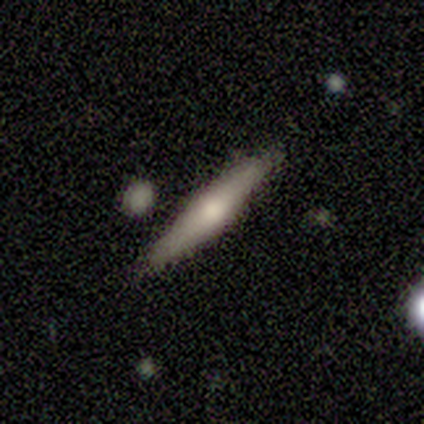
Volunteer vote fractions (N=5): Smooth or featured? 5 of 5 (100%) said featured or disk. Edge-on disk? 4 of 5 (80%) said yes. Edge-on bulge? 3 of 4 (75%) said rounded. Merging? 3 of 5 (60%) said none.